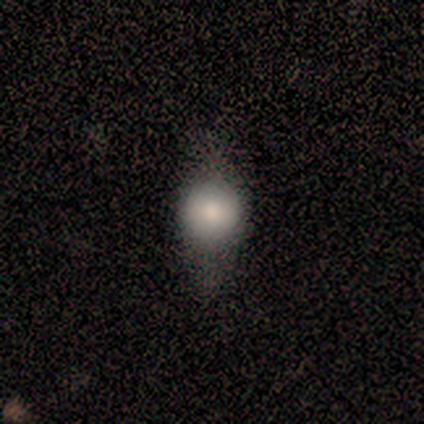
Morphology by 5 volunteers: A smooth galaxy with no disk features (60%) that is round (33%, tied with in between and cigar-shaped).

Vote fractions:
- Smooth or featured? smooth: 60% / featured or disk: 20% / star or artifact: 20%
- How rounded? round: 33% (tied) / in between: 33% (tied) / cigar-shaped: 33% (tied)
- Merging? none: 75% / minor disturbance: 25% / major disturbance: 0% / merger: 0%